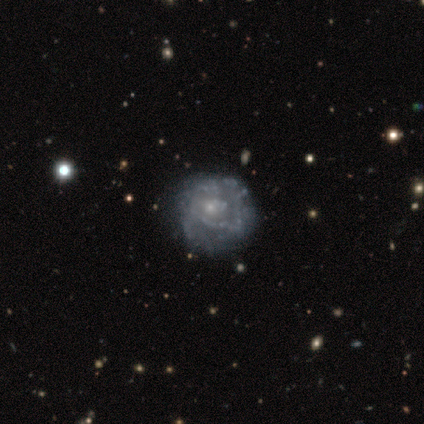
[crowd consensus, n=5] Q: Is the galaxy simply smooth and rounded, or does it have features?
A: featured or disk — 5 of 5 (100%).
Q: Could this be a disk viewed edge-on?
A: no — 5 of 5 (100%).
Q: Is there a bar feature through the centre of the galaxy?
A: no — 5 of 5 (100%).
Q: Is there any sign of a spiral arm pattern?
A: yes — 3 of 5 (60%).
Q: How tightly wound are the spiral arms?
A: tight — 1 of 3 (33%, tied with medium and loose).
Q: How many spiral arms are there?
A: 1 — 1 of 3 (33%, tied with 2 and can't tell).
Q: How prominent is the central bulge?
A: small — 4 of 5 (80%).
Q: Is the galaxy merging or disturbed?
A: minor disturbance — 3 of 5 (60%).